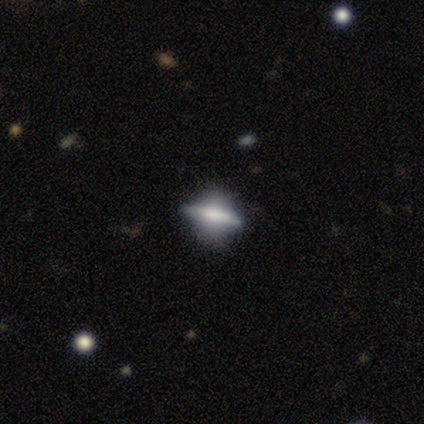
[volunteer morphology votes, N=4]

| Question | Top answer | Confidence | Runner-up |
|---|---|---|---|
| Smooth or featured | featured or disk | 50% | smooth (25%) |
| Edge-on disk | yes | 50% | tied: no (50%) |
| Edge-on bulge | rounded | 100% | — |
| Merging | none | 100% | — |